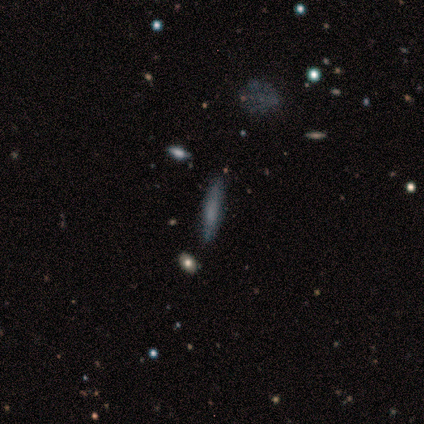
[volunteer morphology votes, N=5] This is likely a smooth galaxy (60%). How rounded: clearly cigar-shaped (100%). Merging: likely none (75%).